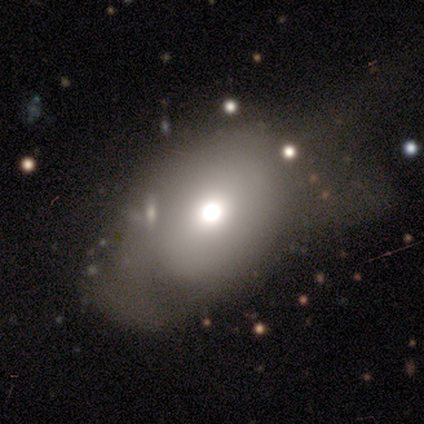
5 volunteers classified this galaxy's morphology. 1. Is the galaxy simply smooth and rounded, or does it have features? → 60% smooth, 40% featured or disk, 0% star or artifact.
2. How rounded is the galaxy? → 100% in between, 0% round, 0% cigar-shaped.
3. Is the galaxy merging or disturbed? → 40% minor disturbance (tied), 40% major disturbance (tied), 20% none, 0% merger.